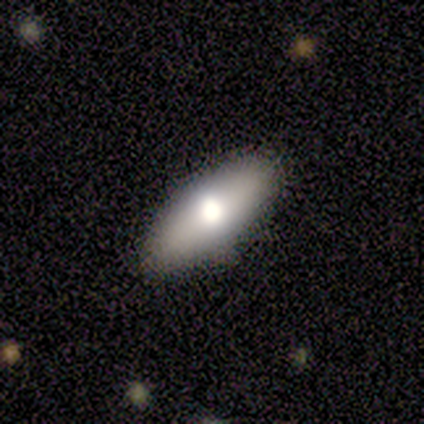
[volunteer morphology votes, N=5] smooth 60%, featured or disk 20%, star or artifact 20%. Down the decision tree: how rounded — in between (67%); merging — none (100%).